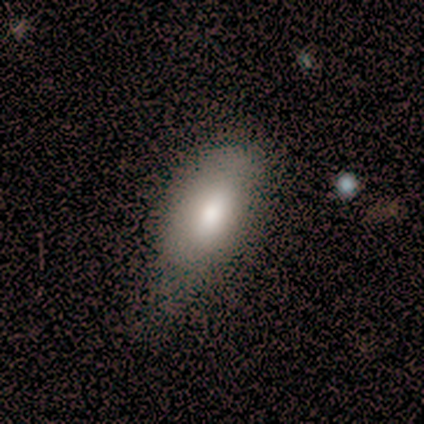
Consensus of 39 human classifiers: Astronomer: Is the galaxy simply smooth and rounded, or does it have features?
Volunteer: smooth — 87%.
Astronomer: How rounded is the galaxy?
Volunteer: in between — 88%.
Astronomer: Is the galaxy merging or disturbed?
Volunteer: minor disturbance — 30% (runner-up: none, 22%).